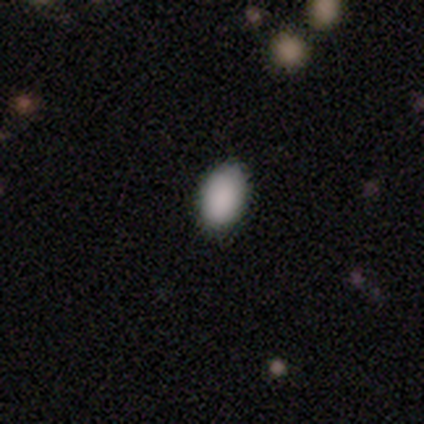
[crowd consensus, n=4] smooth 100%, featured or disk 0%, star or artifact 0%. Down the decision tree: how rounded — in between (100%); merging — none (75%).